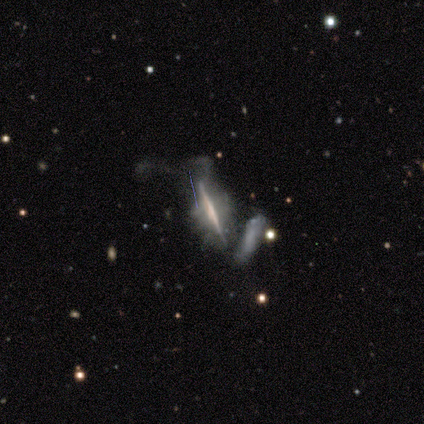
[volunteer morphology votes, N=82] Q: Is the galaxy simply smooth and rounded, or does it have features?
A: featured or disk — 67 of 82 (82%).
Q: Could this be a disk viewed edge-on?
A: yes — 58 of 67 (87%).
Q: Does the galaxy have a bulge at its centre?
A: none — 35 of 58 (60%).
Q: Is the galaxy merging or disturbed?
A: major disturbance — 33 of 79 (42%).